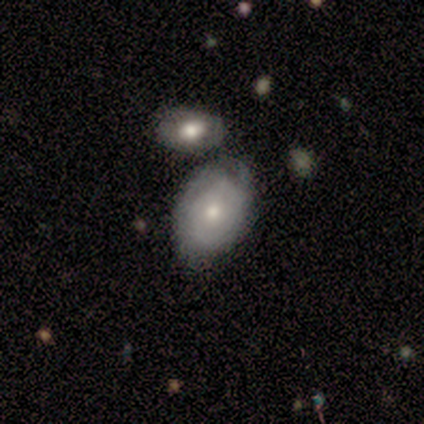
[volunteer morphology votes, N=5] type=featured or disk (60%); edge-on=no (100%); bar=no (100%); spiral arms=yes (100%); winding=loose (67%); arm count=can't tell (67%); bulge=moderate (67%); merging=none (40%, tied with minor disturbance).